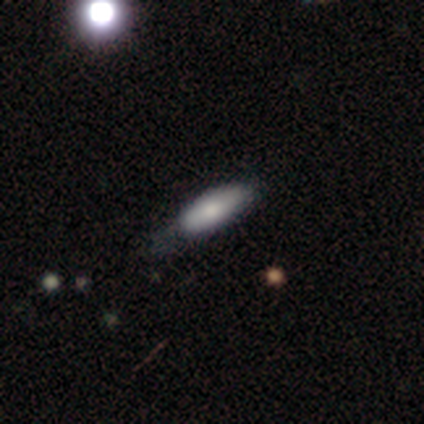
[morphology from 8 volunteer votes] smooth 88%, featured or disk 12%, star or artifact 0%. Down the decision tree: how rounded — in between (86%); merging — none (75%).